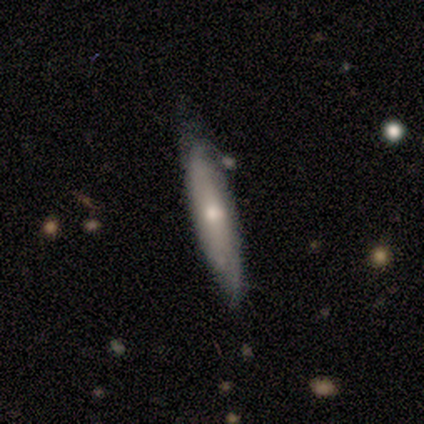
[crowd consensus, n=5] Smooth or featured? featured or disk (100%)
Edge-on disk? yes (80%)
Edge-on bulge? rounded (50%)
Merging? none (60%)